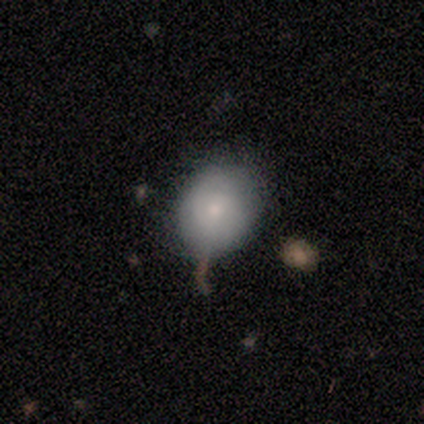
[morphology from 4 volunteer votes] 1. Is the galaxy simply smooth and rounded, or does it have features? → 75% smooth, 25% star or artifact, 0% featured or disk.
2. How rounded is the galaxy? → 67% round, 33% in between, 0% cigar-shaped.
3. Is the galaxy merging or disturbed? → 67% minor disturbance, 33% none, 0% major disturbance, 0% merger.